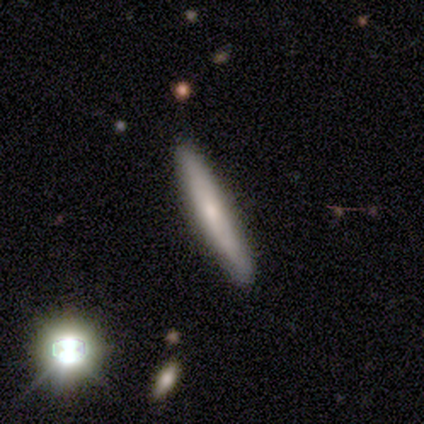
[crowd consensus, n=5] This appears to be a smooth galaxy with no disk features (60%) that is cigar-shaped (67%). Merging: none (100%).